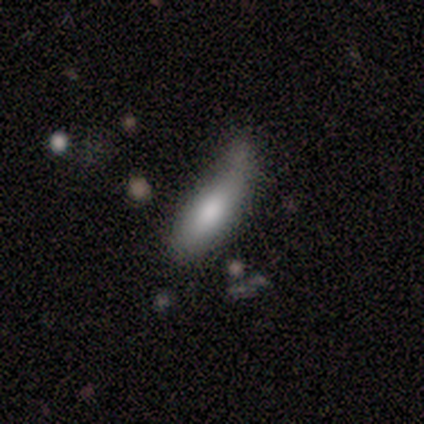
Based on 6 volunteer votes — A smooth galaxy with no disk features (83%) that is in between round and cigar-shaped (40%, tied with cigar-shaped).

Vote fractions:
- Smooth or featured? smooth: 83% / star or artifact: 17% / featured or disk: 0%
- How rounded? in between: 40% (tied) / cigar-shaped: 40% (tied) / round: 20%
- Merging? minor disturbance: 60% / none: 20% / major disturbance: 20% / merger: 0%